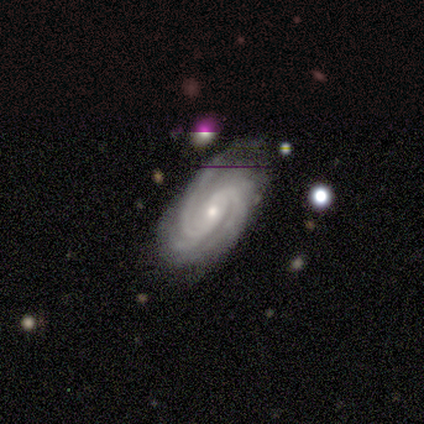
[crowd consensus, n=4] Smooth or featured? featured or disk (100%)
Edge-on disk? no (100%)
Bar? no (50%)
Spiral arms? yes (100%)
Spiral winding? tight (100%)
Spiral arm count? 2 (75%)
Bulge size? small (75%)
Merging? none (75%)